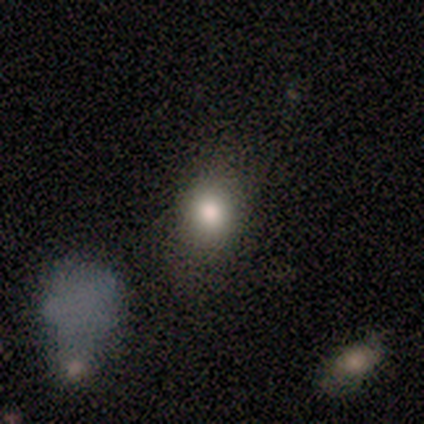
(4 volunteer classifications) Smooth or featured?
  - smooth: 75% *
  - star or artifact: 25%
  - featured or disk: 0%
How rounded?
  - in between: 67% *
  - round: 33%
  - cigar-shaped: 0%
Merging?
  - minor disturbance: 67% *
  - none: 33%
  - major disturbance: 0%
  - merger: 0%